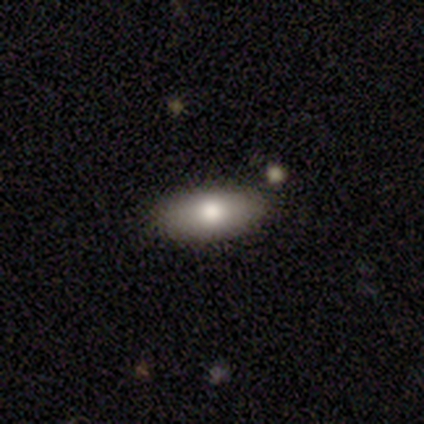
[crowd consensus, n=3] Smooth or featured? smooth (100%)
How rounded? in between (67%)
Merging? none (67%)